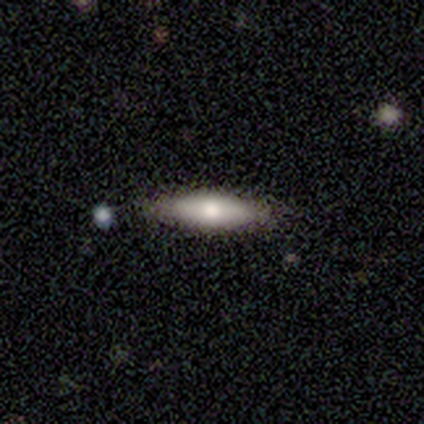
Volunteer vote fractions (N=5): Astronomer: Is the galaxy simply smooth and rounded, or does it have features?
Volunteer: smooth — 80%.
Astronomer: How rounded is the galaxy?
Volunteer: in between — 50%, tied with cigar-shaped at 50%.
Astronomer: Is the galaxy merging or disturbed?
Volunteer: none — 100%.